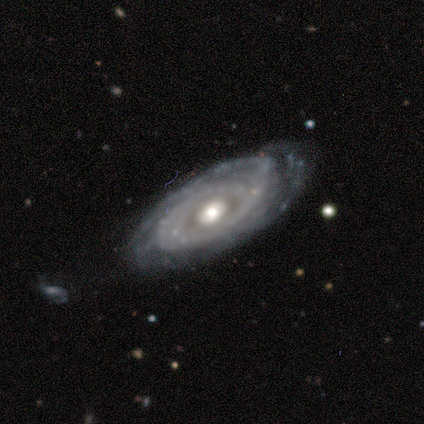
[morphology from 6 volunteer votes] Smooth or featured? featured or disk (100%)
Edge-on disk? no (67%)
Bar? no (75%)
Spiral arms? yes (75%)
Spiral winding? tight (100%)
Spiral arm count? more than 4 (67%)
Bulge size? moderate (75%)
Merging? none (83%)